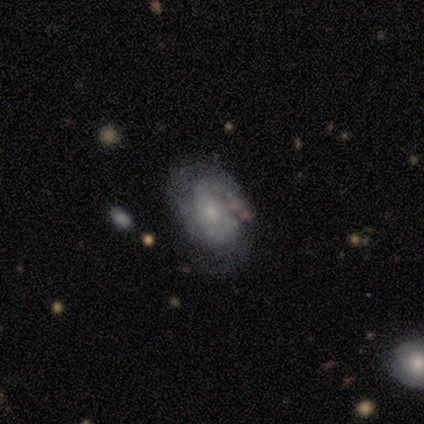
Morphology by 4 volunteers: type=featured or disk (100%); edge-on=no (100%); bar=no (75%); spiral arms=yes (75%); winding=tight (33%, tied with medium and loose); arm count=2 (67%); bulge=small (75%); merging=none (50%, tied with minor disturbance).